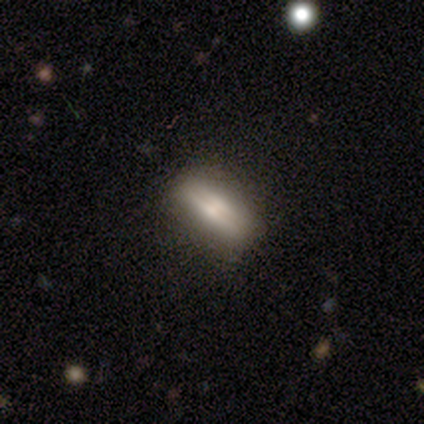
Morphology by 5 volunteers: Smooth or featured?
  - smooth: 80% *
  - featured or disk: 20%
  - star or artifact: 0%
How rounded?
  - in between: 75% *
  - cigar-shaped: 25%
  - round: 0%
Merging?
  - none: 60% *
  - minor disturbance: 40%
  - major disturbance: 0%
  - merger: 0%